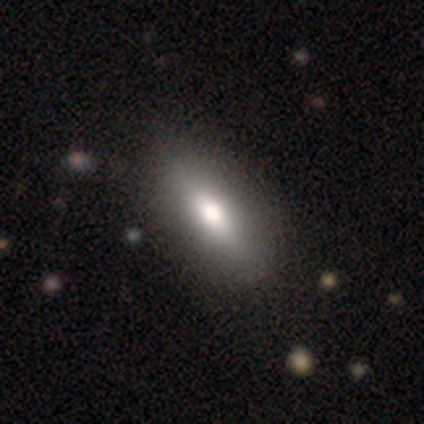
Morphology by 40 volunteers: Smooth or featured: smooth — 70% (featured or disk — 25%)
How rounded: in between — 86% (cigar-shaped — 14%)
Merging: none — 66% (major disturbance — 5%)